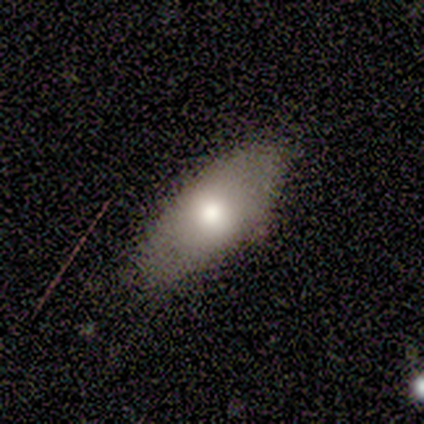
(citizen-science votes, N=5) Smooth or featured? smooth (80%)
How rounded? in between (100%)
Merging? none (80%)